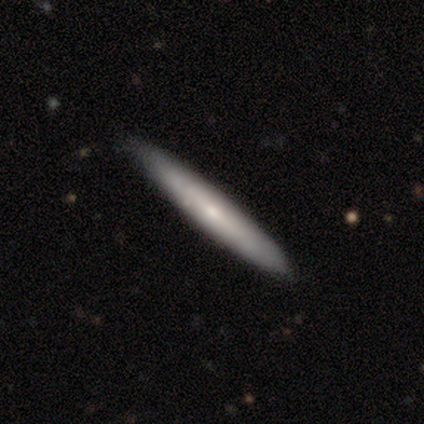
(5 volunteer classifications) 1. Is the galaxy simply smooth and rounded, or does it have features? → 60% smooth, 40% featured or disk, 0% star or artifact.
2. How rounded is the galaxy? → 100% cigar-shaped, 0% round, 0% in between.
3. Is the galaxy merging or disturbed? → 100% none, 0% minor disturbance, 0% major disturbance, 0% merger.